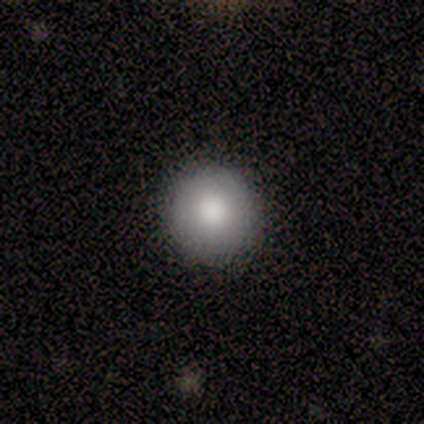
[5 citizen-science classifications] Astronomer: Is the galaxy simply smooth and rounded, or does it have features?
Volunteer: smooth — 80%.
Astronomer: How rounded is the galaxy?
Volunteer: round — 100%.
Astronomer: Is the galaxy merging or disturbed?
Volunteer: none — 100%.